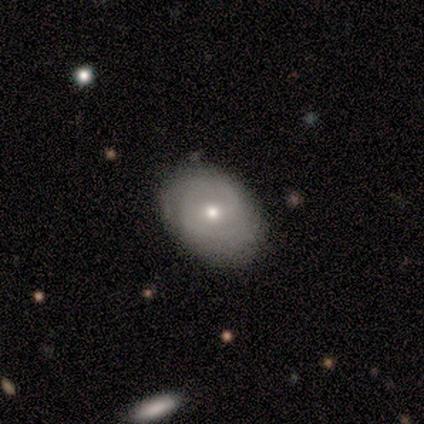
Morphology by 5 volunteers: Smooth or featured: featured or disk — 100%
Edge-on disk: no — 100%
Bar: no — 60% (weak — 40%)
Spiral arms: yes — 60% (no — 40%)
Spiral winding: medium — 67% (tight — 33%)
Spiral arm count: 2 — 67% (can't tell — 33%)
Bulge size: moderate — 40% (tied with small — 40%)
Merging: none — 100%